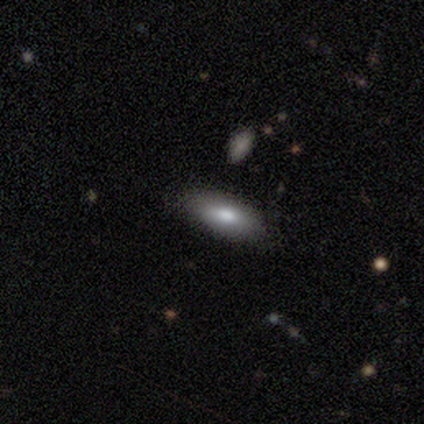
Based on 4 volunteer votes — This is clearly a smooth galaxy (100%). How rounded: likely in between (75%). Merging: clearly none (100%).